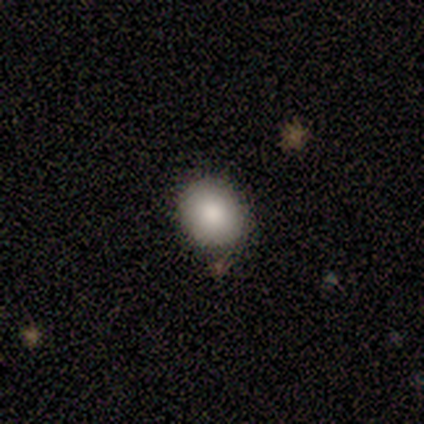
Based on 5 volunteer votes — Morphology: type=smooth (80%); roundness=round (75%); merging=none (75%).